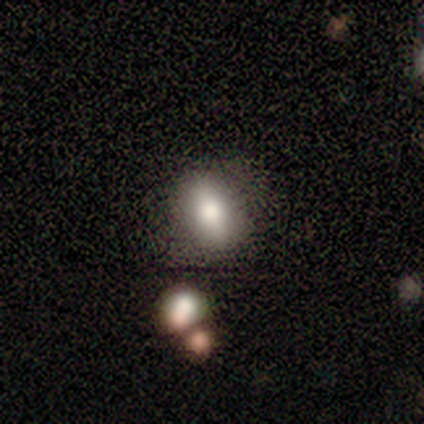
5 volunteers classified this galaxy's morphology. Overall: smooth (60%; featured or disk 40%). How rounded: in between (67%; round 33%). Merging: none (100%).